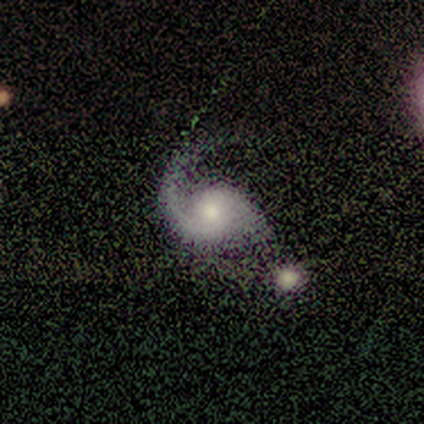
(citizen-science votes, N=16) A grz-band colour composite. It shows a featured or disk galaxy (100%) with no bar (60%), 2 (62%) loose (54%) spiral arms (87%) and a moderate central bulge (60%). Merging: none (38%).